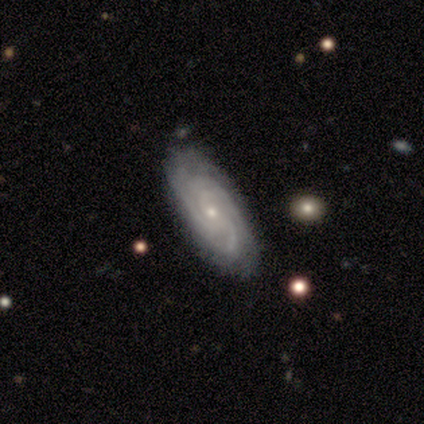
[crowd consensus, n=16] This is likely a featured or disk galaxy (75%). It is clearly not viewed edge-on (100%). Bar: likely no (67%). Spiral arm pattern: clearly yes (100%). Spiral arm count: likely 3 (75%). Spiral winding: possibly tight (58%). Central bulge: clearly small (100%). Merging: clearly none (93%).